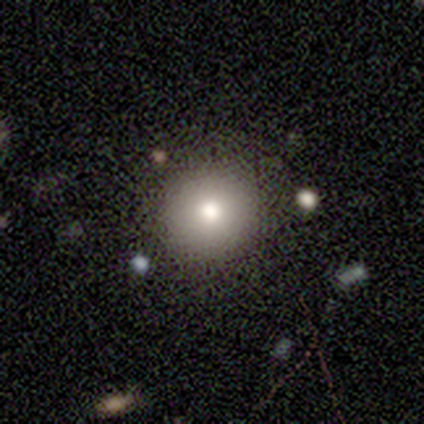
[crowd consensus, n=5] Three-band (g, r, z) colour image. It shows a smooth galaxy with no disk features (60%) that is round (100%). Merging: none (100%).